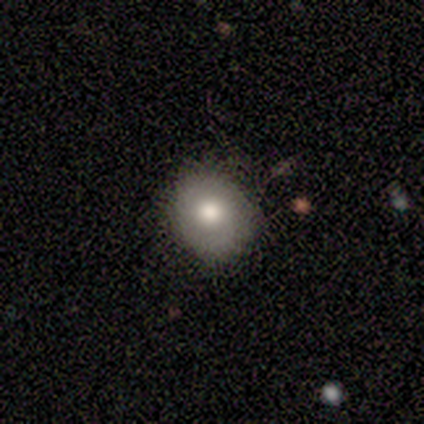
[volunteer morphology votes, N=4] smooth_or_featured: smooth (p=0.75) [alt: featured or disk p=0.25]
how_rounded: round (p=0.67) [alt: in between p=0.33]
merging: none (p=1.00)